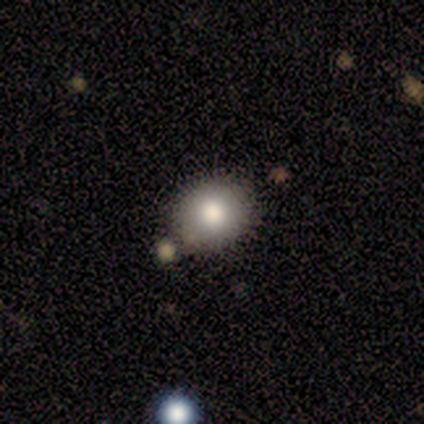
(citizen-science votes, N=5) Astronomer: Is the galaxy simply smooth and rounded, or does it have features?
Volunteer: smooth — 100%.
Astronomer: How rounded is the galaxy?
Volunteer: round — 80%.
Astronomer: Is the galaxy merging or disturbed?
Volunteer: none — 100%.